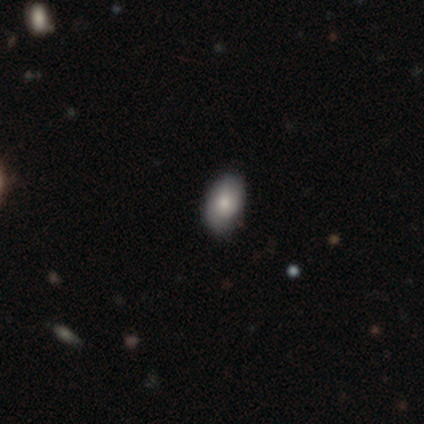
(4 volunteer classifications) smooth_or_featured: smooth (p=0.50) [alt: featured or disk p=0.25]
how_rounded: in between (p=1.00)
merging: none (p=1.00)